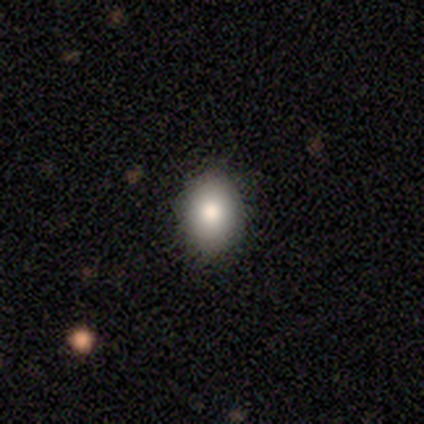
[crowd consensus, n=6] A smooth galaxy with no disk features (83%) that is in between round and cigar-shaped (100%).

Vote fractions:
- Smooth or featured? smooth: 83% / star or artifact: 17% / featured or disk: 0%
- How rounded? in between: 100% / round: 0% / cigar-shaped: 0%
- Merging? none: 100% / minor disturbance: 0% / major disturbance: 0% / merger: 0%